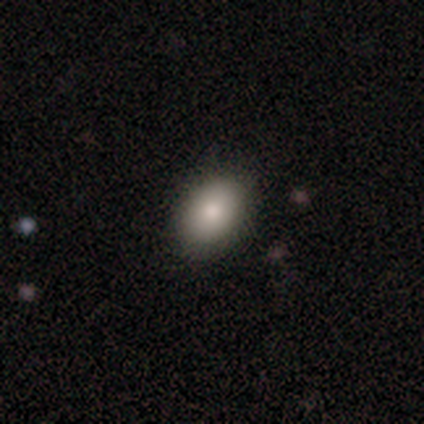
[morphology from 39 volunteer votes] Q: Smooth or featured?
A: smooth (87%); runner-up: featured or disk (8%)
Q: How rounded?
A: in between (79%); runner-up: round (21%)
Q: Merging?
A: none (95%); runner-up: minor disturbance (5%)